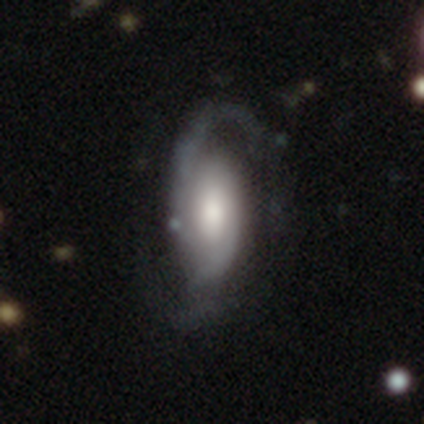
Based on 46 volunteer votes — smooth_or_featured: featured or disk (p=0.83) [alt: smooth p=0.15]
disk_edge_on: no (p=0.97) [alt: yes p=0.03]
bar: no (p=0.65) [alt: weak p=0.27]
has_spiral_arms: yes (p=0.95) [alt: no p=0.05]
spiral_winding: medium (p=0.49) [alt: loose p=0.34]
spiral_arm_count: 2 (p=0.86) [alt: can't tell p=0.09]
bulge_size: moderate (p=0.41) [alt: large p=0.32]
merging: none (p=0.62) [alt: major disturbance p=0.20]